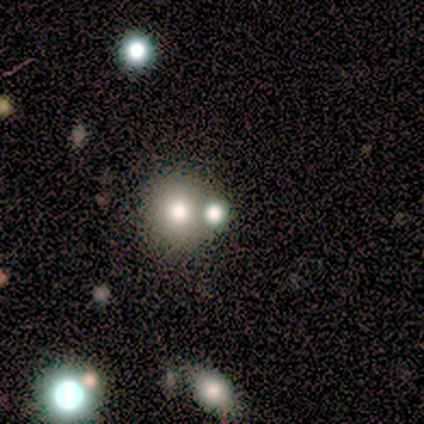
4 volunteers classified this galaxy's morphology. This is clearly a smooth galaxy (100%). How rounded: clearly round (100%). Merging: likely none (75%).